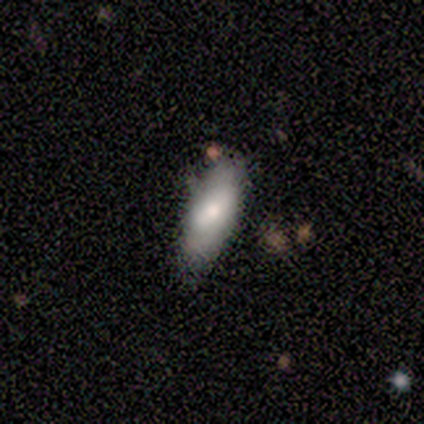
featured or disk 60%, smooth 40%, star or artifact 0%. Down the decision tree: edge-on disk — no (100%); bar — weak (67%); spiral arms — no (67%); bulge size — moderate (67%); merging — none (80%).